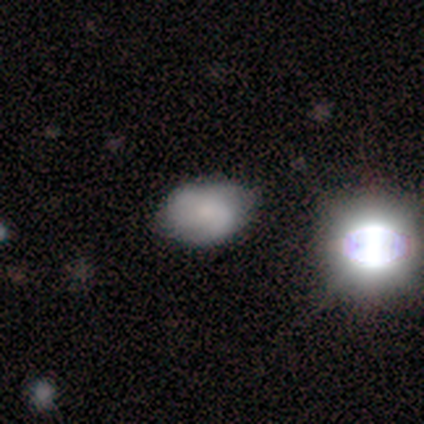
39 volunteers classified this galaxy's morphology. Smooth or featured? 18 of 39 (46%) said smooth. How rounded? 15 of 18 (83%) said in between. Merging? 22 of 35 (63%) said none.